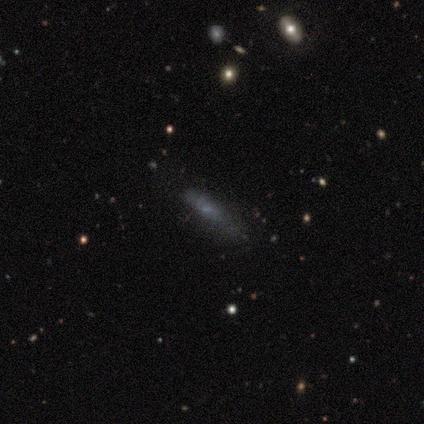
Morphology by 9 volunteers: type=smooth (56%); roundness=cigar-shaped (100%); merging=none (62%).